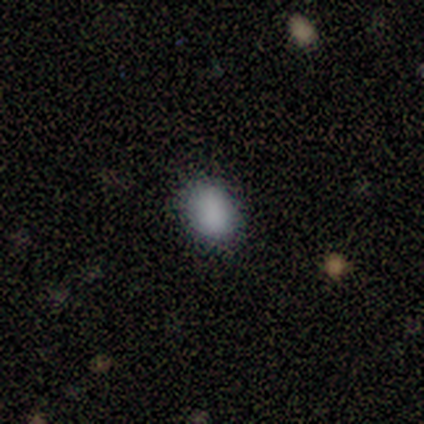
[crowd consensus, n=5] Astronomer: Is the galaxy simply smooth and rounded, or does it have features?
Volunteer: smooth — 80%.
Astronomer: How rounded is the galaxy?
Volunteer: in between — 100%.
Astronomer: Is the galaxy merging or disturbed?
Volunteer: none — 75%.